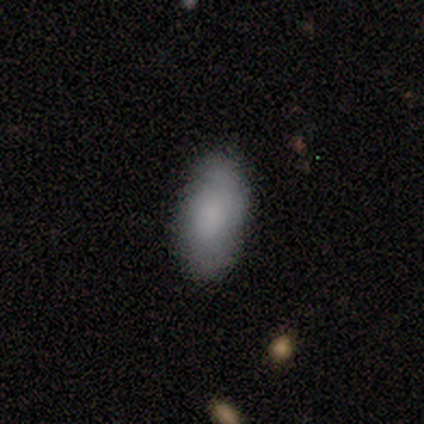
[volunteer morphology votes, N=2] Volunteers were most divided on "merging" (2-way tie): none: 50%, minor disturbance: 50%, major disturbance: 0%, merger: 0%. More confident: smooth or featured — smooth (100%); how rounded — in between (100%).